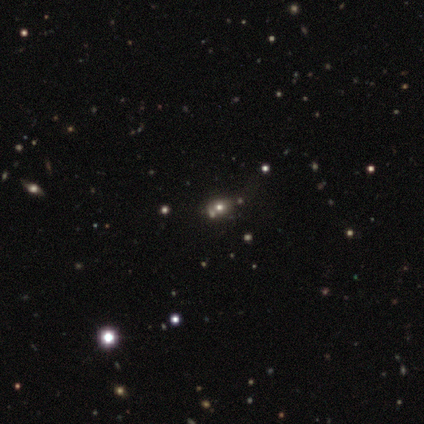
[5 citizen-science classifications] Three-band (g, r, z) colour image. It shows a smooth galaxy with no disk features (60%) that is in between round and cigar-shaped (100%). Merging: none (67%).